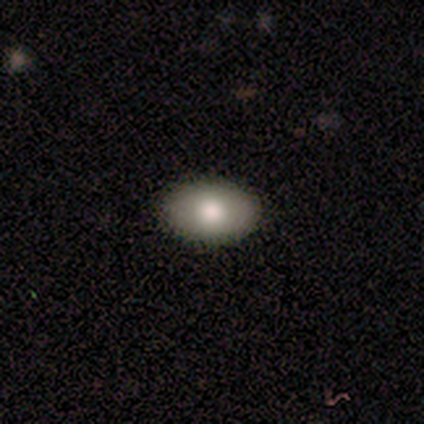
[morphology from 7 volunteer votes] smooth-or-featured: smooth: 57% | featured or disk: 43% | star or artifact: 0%
  how-rounded: round: 50% (tied) | in between: 50% (tied) | cigar-shaped: 0%
  merging: none: 100% | minor disturbance: 0% | major disturbance: 0% | merger: 0%